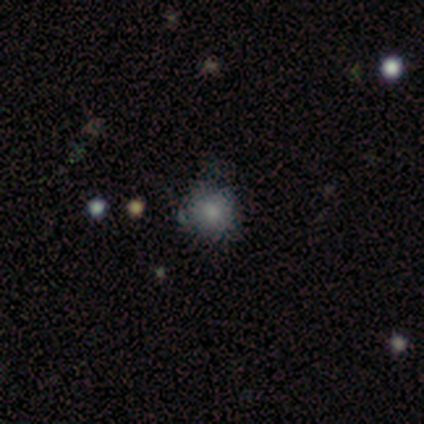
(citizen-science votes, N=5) A smooth galaxy with no disk features (40%, tied with star or artifact) that is round (100%). Merging: none (67%).